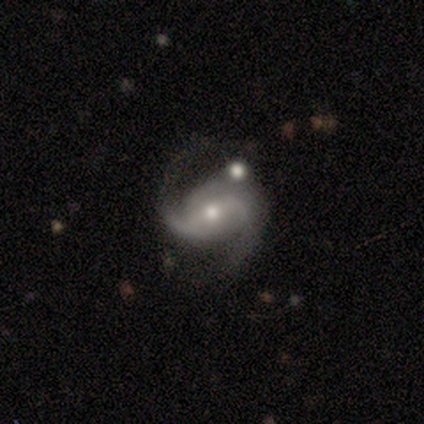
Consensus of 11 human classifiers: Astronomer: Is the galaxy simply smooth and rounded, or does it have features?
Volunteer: featured or disk — 100%.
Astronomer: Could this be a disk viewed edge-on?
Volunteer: no — 100%.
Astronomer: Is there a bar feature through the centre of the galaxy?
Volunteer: weak — 55%.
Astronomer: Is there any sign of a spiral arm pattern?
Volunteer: yes — 100%.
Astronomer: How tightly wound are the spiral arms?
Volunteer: medium — 55%.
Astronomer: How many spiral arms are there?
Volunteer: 2 — 82%.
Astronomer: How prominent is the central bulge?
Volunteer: moderate — 55% (runner-up: small, 36%).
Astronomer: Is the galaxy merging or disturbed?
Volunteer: none — 55%.